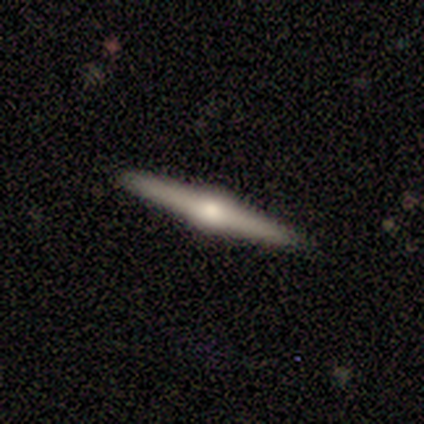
Smooth or featured? 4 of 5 (80%) said featured or disk. Edge-on disk? 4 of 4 (100%) said yes. Edge-on bulge? 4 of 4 (100%) said rounded. Merging? 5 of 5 (100%) said none.